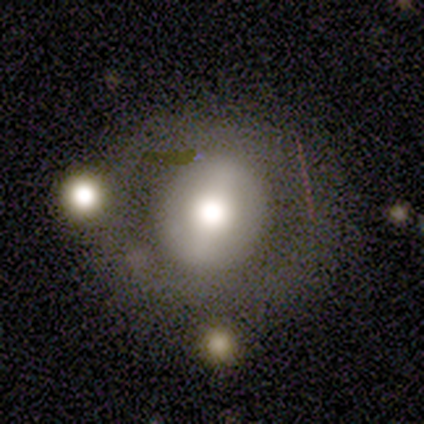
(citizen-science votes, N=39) Smooth or featured? featured or disk (49%)
Edge-on disk? no (100%)
Bar? no (37%)
Spiral arms? no (95%)
Bulge size? moderate (63%)
Merging? none (60%)